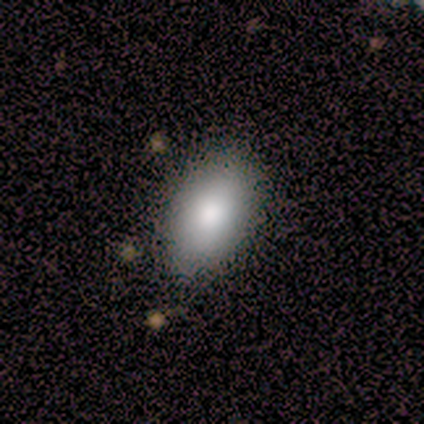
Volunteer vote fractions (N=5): smooth_or_featured: smooth (p=0.80) [alt: star or artifact p=0.20]
how_rounded: in between (p=1.00)
merging: none (p=0.50) [alt: minor disturbance p=0.25]